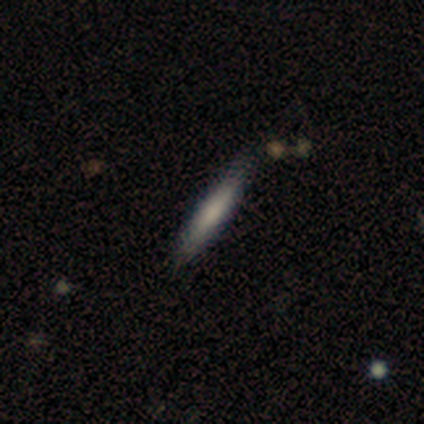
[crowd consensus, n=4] Smooth or featured? smooth (75%)
How rounded? cigar-shaped (100%)
Merging? none (75%)